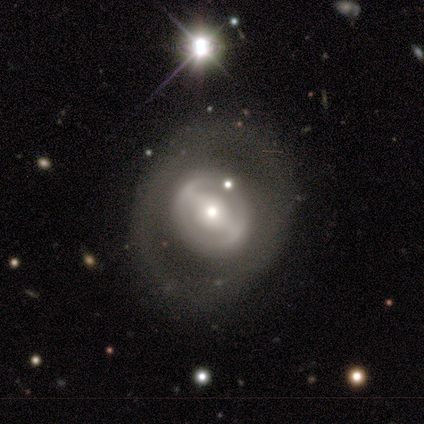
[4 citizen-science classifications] Volunteers were most divided on "bar" (3-way tie): strong: 33%, weak: 33%, no: 33%; "spiral winding" (2-way tie): tight: 50%, loose: 50%, medium: 0%; "merging" (2-way tie): none: 50%, minor disturbance: 50%, major disturbance: 0%, merger: 0%. More confident: edge-on disk — no (100%); spiral arm count — 1 (100%); smooth or featured — featured or disk (75%); spiral arms — yes (67%); bulge size — moderate (67%).